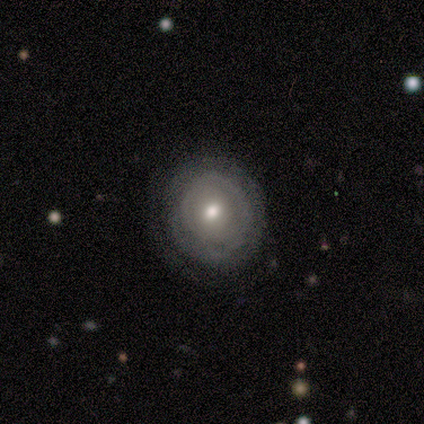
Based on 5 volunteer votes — This appears to be a featured or disk galaxy (80%) with no bar (100%), no spiral arms (75%) and a moderate central bulge (75%). Merging: none (80%).